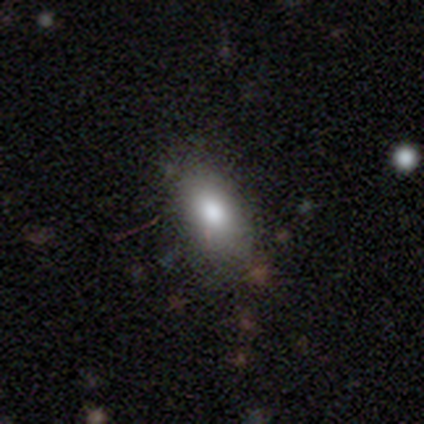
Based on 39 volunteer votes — This is likely a smooth galaxy (77%). How rounded: likely in between (67%). Merging: clearly none (84%).